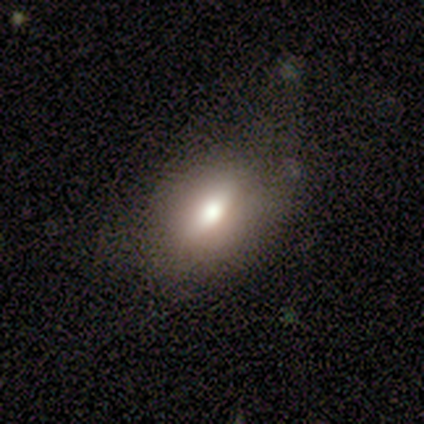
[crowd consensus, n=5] Smooth or featured? 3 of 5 (60%) said featured or disk. Edge-on disk? 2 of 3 (67%) said no. Bar? 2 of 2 (100%) said no. Spiral arms? 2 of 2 (100%) said no. Bulge size? 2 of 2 (100%) said large. Merging? 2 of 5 (40%, tied with major disturbance) said minor disturbance.